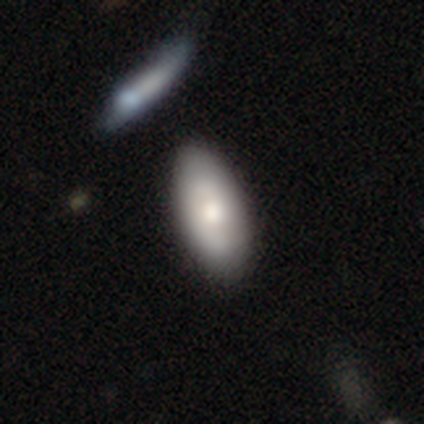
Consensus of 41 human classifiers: smooth-or-featured: smooth: 71% | featured or disk: 29% | star or artifact: 0%
  how-rounded: in between: 90% | cigar-shaped: 7% | round: 3%
  merging: none: 56% | minor disturbance: 7% | merger: 7% | major disturbance: 5%